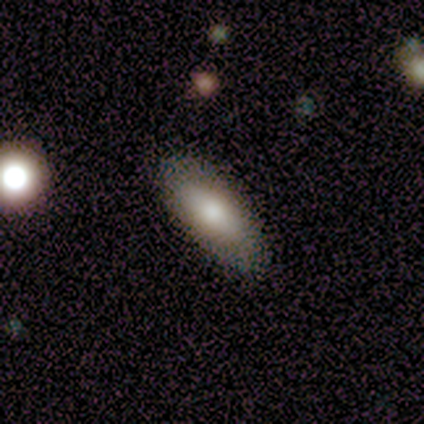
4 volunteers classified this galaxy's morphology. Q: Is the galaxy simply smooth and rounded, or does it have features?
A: smooth — 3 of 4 (75%).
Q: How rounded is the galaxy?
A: round — 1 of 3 (33%, tied with in between and cigar-shaped).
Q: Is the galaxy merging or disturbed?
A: none — 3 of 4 (75%).